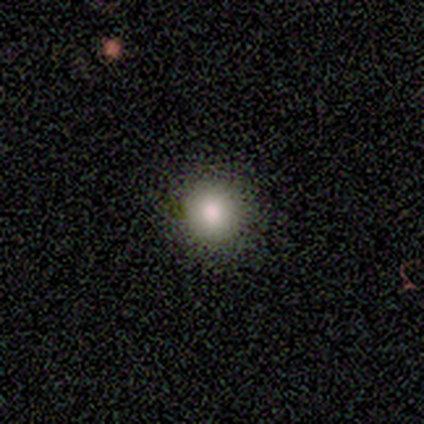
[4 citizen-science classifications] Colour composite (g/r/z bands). It shows a smooth galaxy with no disk features (100%) that is round (100%). Merging: none (100%).